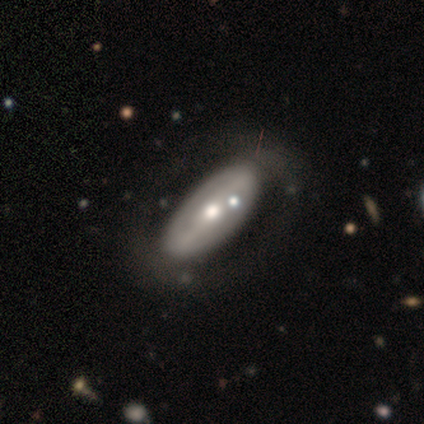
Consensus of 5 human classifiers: smooth-or-featured: featured or disk: 80% | smooth: 20% | star or artifact: 0%
  disk-edge-on: no: 100% | yes: 0%
    bar: weak: 50% | strong: 25% | no: 25%
    has-spiral-arms: no: 75% | yes: 25%
    bulge-size: moderate: 50% (tied) | small: 50% (tied) | dominant: 0% | large: 0% | none: 0%
  merging: none: 60% | minor disturbance: 20% | major disturbance: 20% | merger: 0%